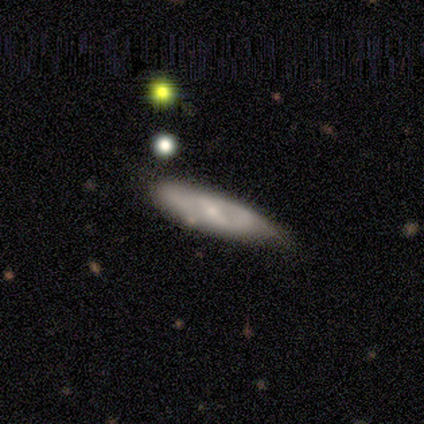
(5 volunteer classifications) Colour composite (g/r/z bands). It shows a featured or disk galaxy (80%) with a strong bar (100%), 1 (50%, tied with 2) tight (50%, tied with medium) spiral arms (50%, tied with no) and a small central bulge (50%). Merging: minor disturbance (60%).